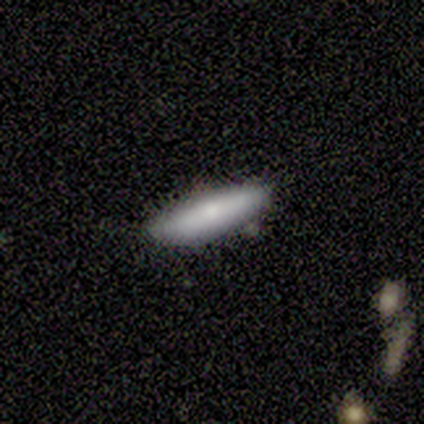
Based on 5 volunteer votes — Smooth or featured? 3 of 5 (60%) said smooth. How rounded? 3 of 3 (100%) said cigar-shaped. Merging? 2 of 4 (50%, tied with minor disturbance) said none.